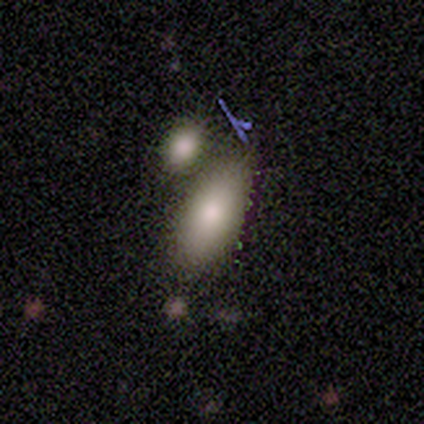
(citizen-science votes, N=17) Q: Smooth or featured?
A: smooth (88%); runner-up: featured or disk (12%)
Q: How rounded?
A: in between (87%); runner-up: cigar-shaped (13%)
Q: Merging?
A: none (53%); runner-up: merger (35%)